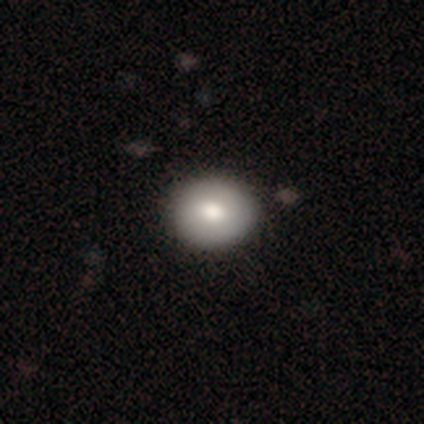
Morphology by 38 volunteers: This appears to be a smooth galaxy with no disk features (71%) that is round (56%). Merging: none (80%).